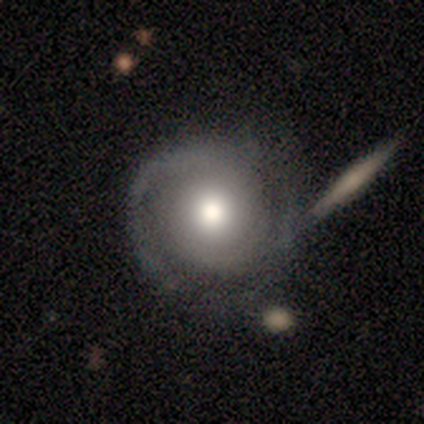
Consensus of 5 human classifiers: This appears to be a featured or disk galaxy (80%) with no bar (100%), 1 (50%, tied with can't tell) tight (50%, tied with medium) spiral arms (50%, tied with no) and a large central bulge (50%, tied with moderate). Merging: none (50%).